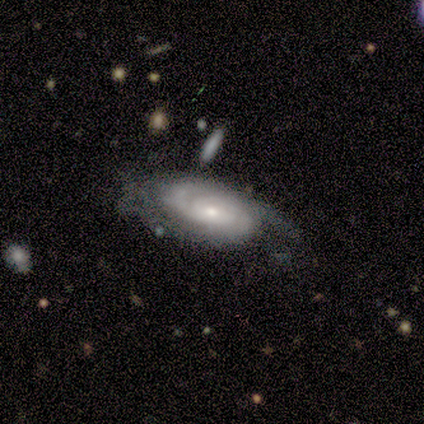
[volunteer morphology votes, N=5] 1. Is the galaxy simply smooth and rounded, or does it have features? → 80% featured or disk, 20% smooth, 0% star or artifact.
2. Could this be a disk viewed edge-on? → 100% no, 0% yes.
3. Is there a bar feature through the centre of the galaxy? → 50% weak (tied), 50% no (tied), 0% strong.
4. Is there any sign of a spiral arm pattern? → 100% yes, 0% no.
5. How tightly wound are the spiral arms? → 100% tight, 0% medium, 0% loose.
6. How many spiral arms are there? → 50% 2, 25% 3, 25% can't tell, 0% 1, 0% 4, 0% more than 4.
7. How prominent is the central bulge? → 50% moderate (tied), 50% small (tied), 0% dominant, 0% large, 0% none.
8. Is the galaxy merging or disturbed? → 60% none, 20% minor disturbance, 20% major disturbance, 0% merger.